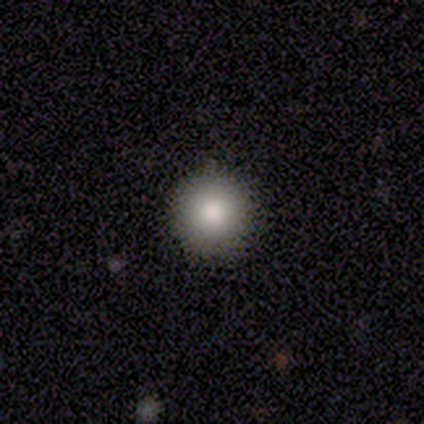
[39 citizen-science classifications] smooth 82%, star or artifact 13%, featured or disk 5%. Down the decision tree: how rounded — round (100%); merging — none (97%).